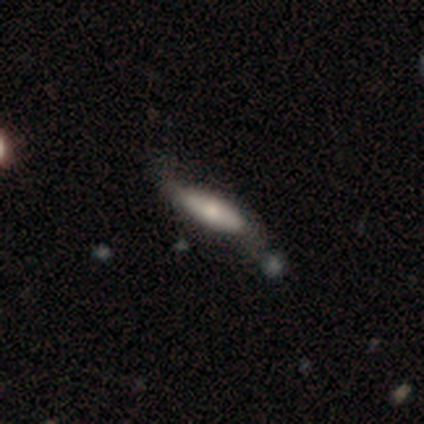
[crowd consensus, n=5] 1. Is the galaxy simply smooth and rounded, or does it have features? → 60% featured or disk, 20% smooth, 20% star or artifact.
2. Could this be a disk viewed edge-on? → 67% no, 33% yes.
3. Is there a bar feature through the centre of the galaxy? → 50% weak (tied), 50% no (tied), 0% strong.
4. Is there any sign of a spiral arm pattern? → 50% yes (tied), 50% no (tied).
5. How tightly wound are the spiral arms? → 100% loose, 0% tight, 0% medium.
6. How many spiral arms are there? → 100% 2, 0% 1, 0% 3, 0% 4, 0% more than 4, 0% can't tell.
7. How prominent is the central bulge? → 100% small, 0% dominant, 0% large, 0% moderate, 0% none.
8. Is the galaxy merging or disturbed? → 50% none (tied), 50% minor disturbance (tied), 0% major disturbance, 0% merger.